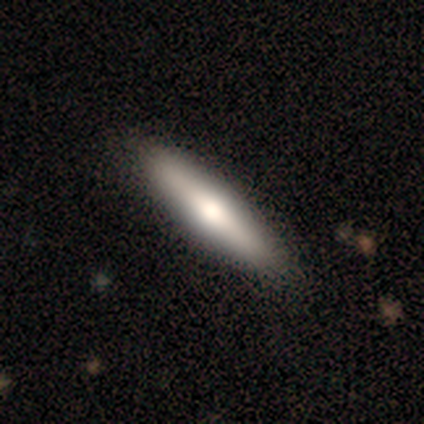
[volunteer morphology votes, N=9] A featured or disk galaxy (67%) viewed edge-on (83%) with a rounded central bulge (100%).

Vote fractions:
- Smooth or featured? featured or disk: 67% / smooth: 22% / star or artifact: 11%
- Edge-on disk? yes: 83% / no: 17%
- Edge-on bulge? rounded: 100% / boxy: 0% / none: 0%
- Merging? none: 88% / minor disturbance: 12% / major disturbance: 0% / merger: 0%